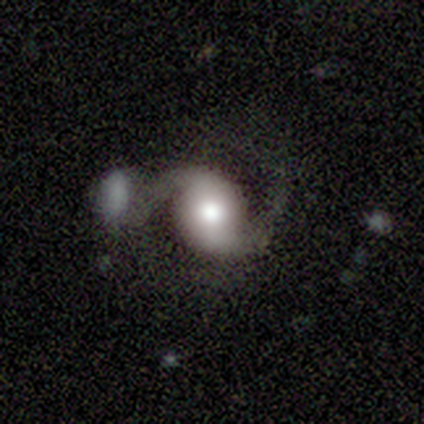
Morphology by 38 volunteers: smooth-or-featured: featured or disk: 87% | star or artifact: 8% | smooth: 5%
  disk-edge-on: no: 100% | yes: 0%
    bar: no: 70% | weak: 18% | strong: 12%
    has-spiral-arms: yes: 100% | no: 0%
      spiral-winding: loose: 58% | medium: 39% | tight: 3%
      spiral-arm-count: 2: 97% | can't tell: 3% | 1: 0% | 3: 0% | 4: 0% | more than 4: 0%
    bulge-size: moderate: 58% | large: 30% | dominant: 9% | none: 3% | small: 0%
  merging: none: 46% | merger: 23% | major disturbance: 20% | minor disturbance: 11%